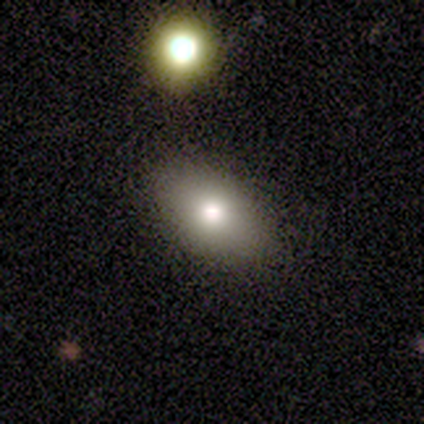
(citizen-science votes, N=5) This is clearly a smooth galaxy (80%). How rounded: likely in between (75%). Merging: clearly none (100%).